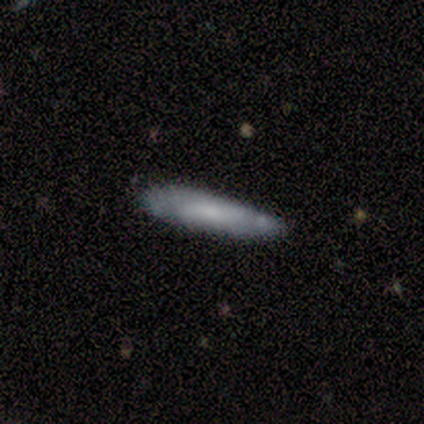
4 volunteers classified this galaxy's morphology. smooth-or-featured: smooth: 50% (tied) | featured or disk: 50% (tied) | star or artifact: 0%
  how-rounded: cigar-shaped: 100% | round: 0% | in between: 0%
  merging: minor disturbance: 75% | none: 25% | major disturbance: 0% | merger: 0%